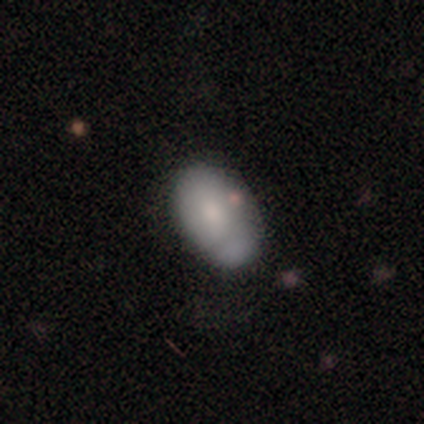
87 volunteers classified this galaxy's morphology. Q: Smooth or featured?
A: smooth (72%); runner-up: featured or disk (23%)
Q: How rounded?
A: in between (86%); runner-up: round (13%)
Q: Merging?
A: none (51%); runner-up: minor disturbance (39%)